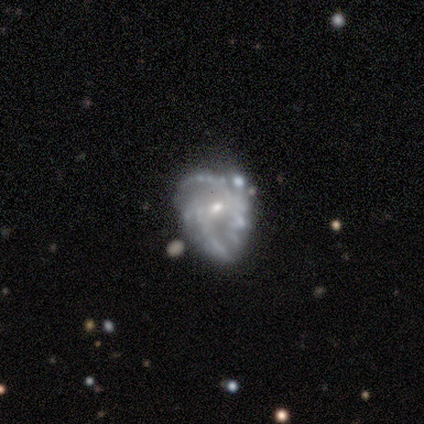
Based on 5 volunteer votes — Volunteers were most divided on "merging" (2-way tie): minor disturbance: 40%, major disturbance: 40%, none: 20%, merger: 0%. More confident: edge-on disk — no (100%); spiral arm count — 2 (100%); bulge size — small (100%); smooth or featured — featured or disk (80%); bar — weak (75%); spiral arms — yes (75%); spiral winding — loose (67%).